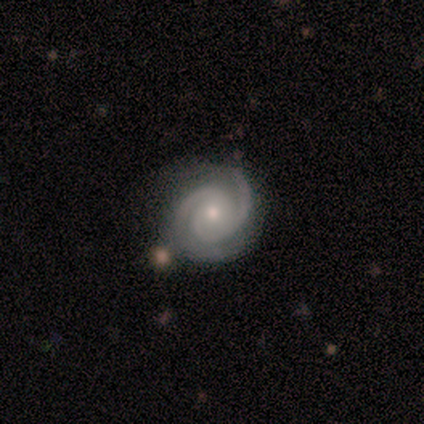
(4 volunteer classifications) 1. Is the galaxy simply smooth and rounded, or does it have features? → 100% featured or disk, 0% smooth, 0% star or artifact.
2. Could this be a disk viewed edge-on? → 100% no, 0% yes.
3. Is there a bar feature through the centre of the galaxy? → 100% no, 0% strong, 0% weak.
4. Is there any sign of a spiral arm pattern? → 100% yes, 0% no.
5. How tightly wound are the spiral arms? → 75% tight, 25% loose, 0% medium.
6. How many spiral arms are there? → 100% 2, 0% 1, 0% 3, 0% 4, 0% more than 4, 0% can't tell.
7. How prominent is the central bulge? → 75% moderate, 25% small, 0% dominant, 0% large, 0% none.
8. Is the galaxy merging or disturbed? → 100% none, 0% minor disturbance, 0% major disturbance, 0% merger.